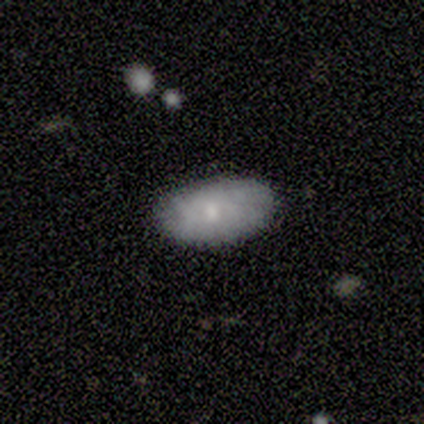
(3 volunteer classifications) Smooth or featured: smooth — 67% (featured or disk — 33%)
How rounded: round — 50% (tied with in between — 50%)
Merging: none — 100%